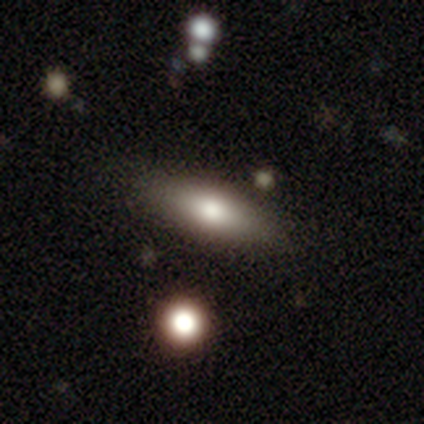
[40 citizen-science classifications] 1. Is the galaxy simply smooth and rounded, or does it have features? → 70% smooth, 25% featured or disk, 5% star or artifact.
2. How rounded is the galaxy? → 61% in between, 39% cigar-shaped, 0% round.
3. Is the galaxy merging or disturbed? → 82% none, 13% minor disturbance, 5% major disturbance, 0% merger.